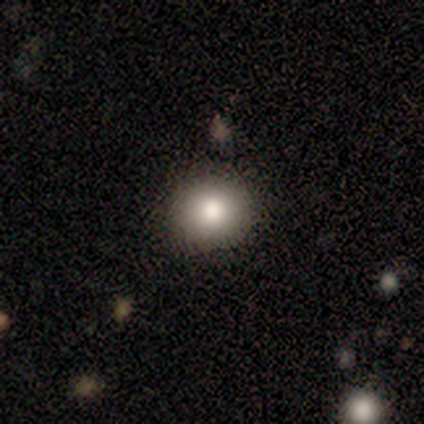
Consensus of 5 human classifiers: smooth-or-featured: smooth: 80% | featured or disk: 20% | star or artifact: 0%
  how-rounded: round: 100% | in between: 0% | cigar-shaped: 0%
  merging: none: 100% | minor disturbance: 0% | major disturbance: 0% | merger: 0%